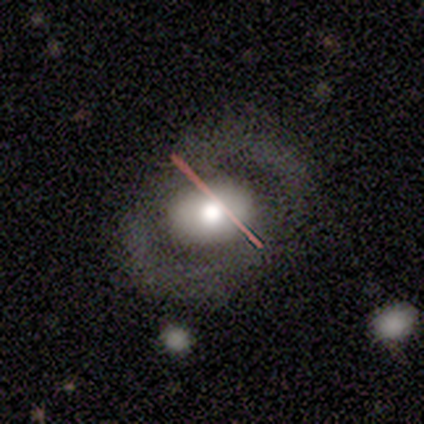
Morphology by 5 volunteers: Overall: featured or disk (60%; smooth 20%). Edge-on disk: no (100%). Bar: no (67%; strong 33%). Spiral arms: yes (67%; no 33%). Spiral arm count: 2 (100%). Spiral winding: tight (50%, tied with medium). Bulge size: moderate (67%; large 33%). Merging: none (100%).